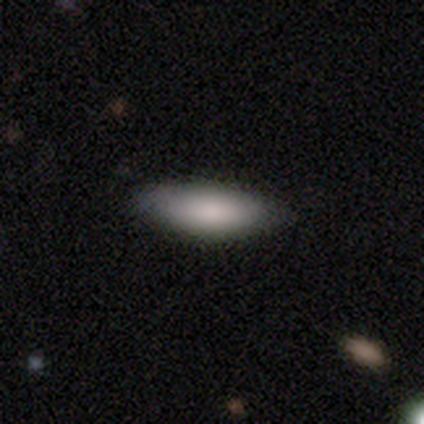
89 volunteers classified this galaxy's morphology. Smooth or featured: smooth — 91% (star or artifact — 6%)
How rounded: in between — 72% (cigar-shaped — 28%)
Merging: none — 86% (minor disturbance — 11%)